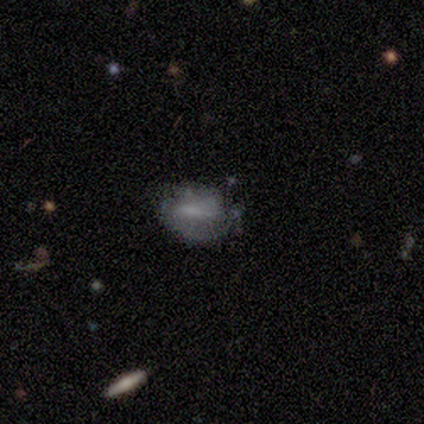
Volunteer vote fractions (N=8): Smooth or featured? smooth (50%)
How rounded? in between (75%)
Merging? none (71%)